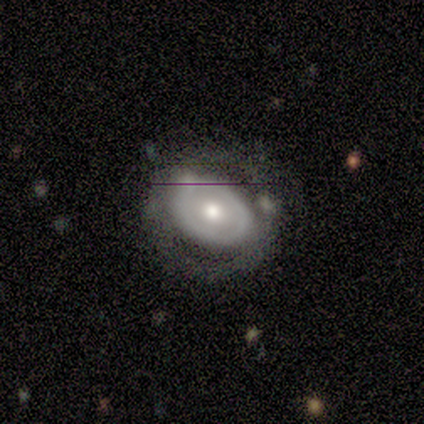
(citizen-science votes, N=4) Smooth or featured?
  - smooth: 50% * (tied)
  - featured or disk: 50% * (tied)
  - star or artifact: 0%
How rounded?
  - in between: 100% *
  - round: 0%
  - cigar-shaped: 0%
Merging?
  - none: 100% *
  - minor disturbance: 0%
  - major disturbance: 0%
  - merger: 0%